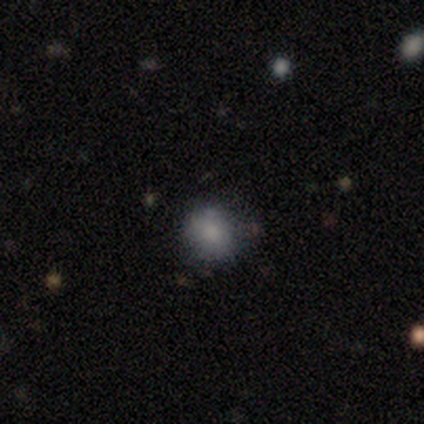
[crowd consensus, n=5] Smooth or featured: smooth — 100%
How rounded: in between — 60% (round — 40%)
Merging: none — 60% (minor disturbance — 40%)